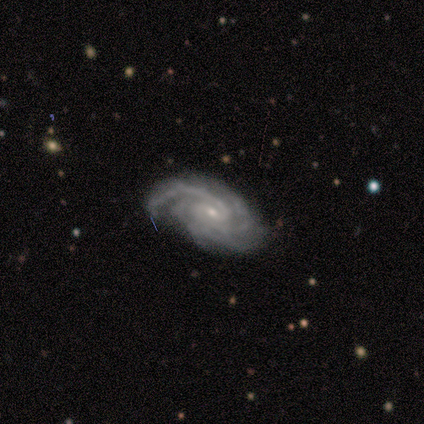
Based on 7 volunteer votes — smooth-or-featured: featured or disk: 100% | smooth: 0% | star or artifact: 0%
  disk-edge-on: no: 100% | yes: 0%
    bar: no: 71% | strong: 14% | weak: 14%
    has-spiral-arms: yes: 100% | no: 0%
      spiral-winding: tight: 71% | medium: 29% | loose: 0%
      spiral-arm-count: 4: 43% | 3: 29% | 2: 14% | can't tell: 14% | 1: 0% | more than 4: 0%
    bulge-size: small: 86% | moderate: 14% | dominant: 0% | large: 0% | none: 0%
  merging: none: 86% | minor disturbance: 14% | major disturbance: 0% | merger: 0%